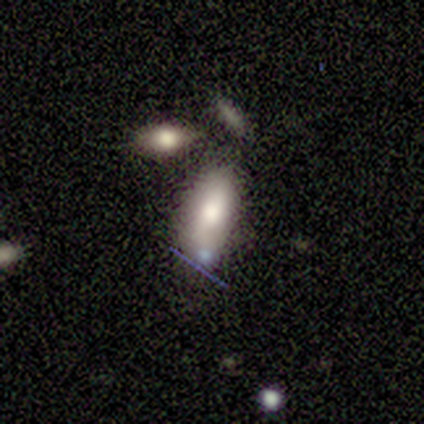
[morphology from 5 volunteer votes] smooth 60%, featured or disk 40%, star or artifact 0%. Down the decision tree: how rounded — in between (100%); merging — merger (60%).